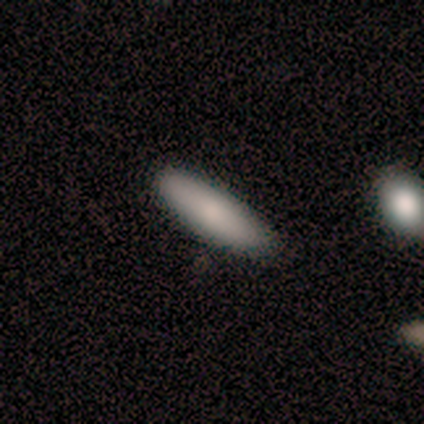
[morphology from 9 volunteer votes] A smooth galaxy with no disk features (89%) that is in between round and cigar-shaped (62%). Merging: none (78%).